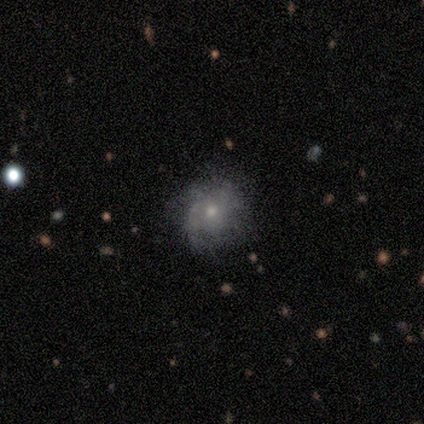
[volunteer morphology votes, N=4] smooth 50%, featured or disk 25%, star or artifact 25%. Down the decision tree: how rounded — round (50%, tied with in between); merging — none (67%).